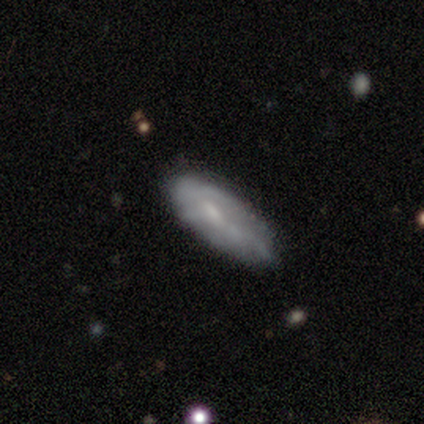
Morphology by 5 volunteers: A smooth galaxy with no disk features (60%) that is in between round and cigar-shaped (67%).

Vote fractions:
- Smooth or featured? smooth: 60% / featured or disk: 20% / star or artifact: 20%
- How rounded? in between: 67% / cigar-shaped: 33% / round: 0%
- Merging? minor disturbance: 50% / none: 25% / major disturbance: 25% / merger: 0%